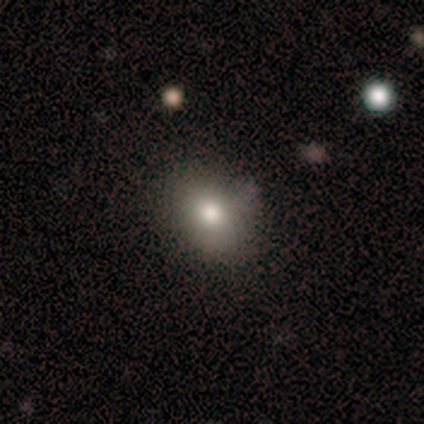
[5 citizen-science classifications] This appears to be a smooth galaxy with no disk features (100%) that is in between round and cigar-shaped (80%). Merging: none (100%).